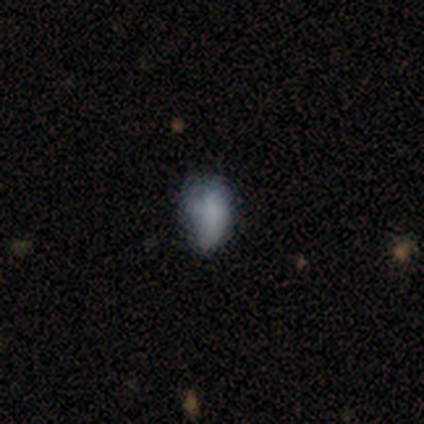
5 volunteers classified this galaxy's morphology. This is marginally a smooth galaxy (40%, tied with star or artifact). How rounded: clearly in between (100%). Merging: marginally none (33%, tied with minor disturbance and major disturbance).